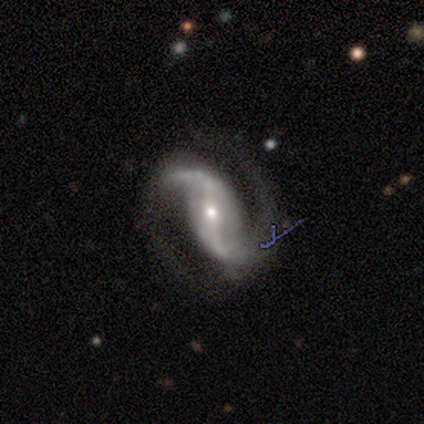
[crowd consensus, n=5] A featured or disk galaxy (100%) with a strong bar (50%), 2 (100%) medium (50%, tied with loose) spiral arms (100%) and a small central bulge (75%).

Vote fractions:
- Smooth or featured? featured or disk: 100% / smooth: 0% / star or artifact: 0%
- Edge-on disk? no: 80% / yes: 20%
- Bar? strong: 50% / weak: 25% / no: 25%
- Spiral arms? yes: 100% / no: 0%
- Spiral winding? medium: 50% (tied) / loose: 50% (tied) / tight: 0%
- Spiral arm count? 2: 100% / 1: 0% / 3: 0% / 4: 0% / more than 4: 0% / can't tell: 0%
- Bulge size? small: 75% / large: 25% / dominant: 0% / moderate: 0% / none: 0%
- Merging? none: 100% / minor disturbance: 0% / major disturbance: 0% / merger: 0%